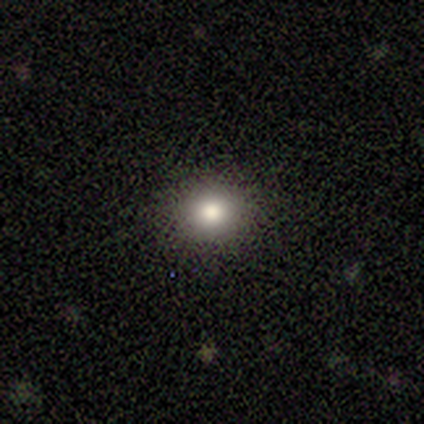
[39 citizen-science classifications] A smooth galaxy with no disk features (67%) that is round (85%).

Vote fractions:
- Smooth or featured? smooth: 67% / star or artifact: 21% / featured or disk: 13%
- How rounded? round: 85% / in between: 15% / cigar-shaped: 0%
- Merging? none: 90% / major disturbance: 6% / minor disturbance: 3% / merger: 0%